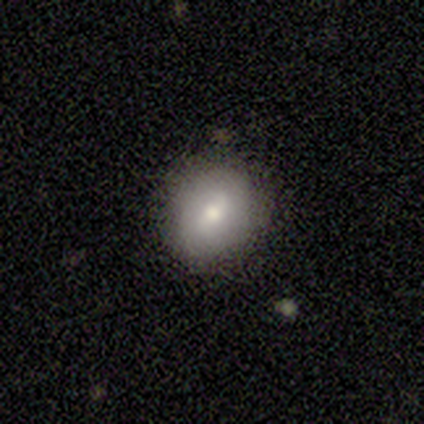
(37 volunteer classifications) Smooth or featured? smooth (57%)
How rounded? round (67%)
Merging? none (85%)